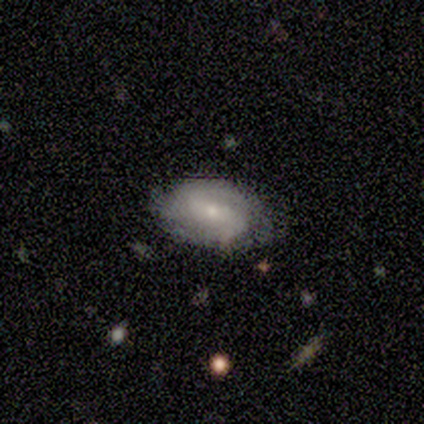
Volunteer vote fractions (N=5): This is clearly a featured or disk galaxy (80%). It is clearly not viewed edge-on (100%). Bar: possibly weak (50%). Spiral arm pattern: clearly yes (100%). Spiral arm count: likely can't tell (75%). Spiral winding: likely tight (75%). Central bulge: clearly small (100%). Merging: clearly none (80%).